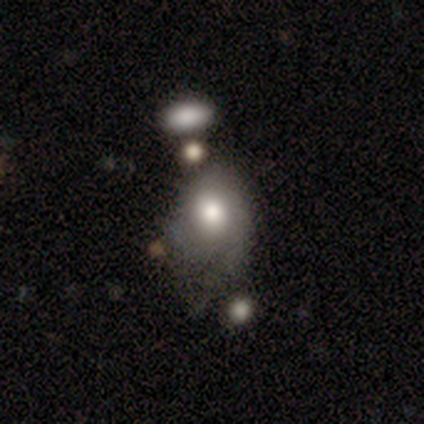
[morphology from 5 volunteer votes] smooth-or-featured: smooth: 100% | featured or disk: 0% | star or artifact: 0%
  how-rounded: round: 60% | in between: 40% | cigar-shaped: 0%
  merging: none: 40% | minor disturbance: 20% | major disturbance: 20% | merger: 20%